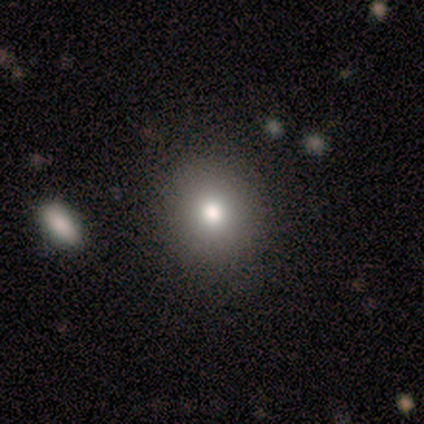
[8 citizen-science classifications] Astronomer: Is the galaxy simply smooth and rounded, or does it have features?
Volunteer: smooth — 75%.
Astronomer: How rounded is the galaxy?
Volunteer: round — 100%.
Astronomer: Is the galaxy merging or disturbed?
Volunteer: none — 86%.